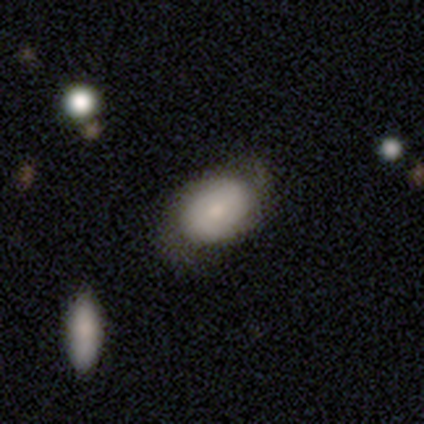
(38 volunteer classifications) Smooth or featured? 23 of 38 (61%) said smooth. How rounded? 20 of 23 (87%) said in between. Merging? 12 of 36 (33%) said none.